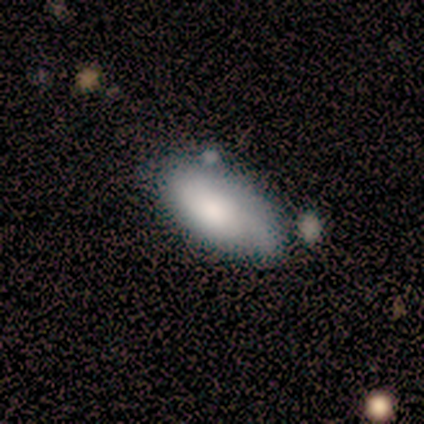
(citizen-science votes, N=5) A smooth galaxy with no disk features (60%) that is in between round and cigar-shaped (67%).

Vote fractions:
- Smooth or featured? smooth: 60% / featured or disk: 20% / star or artifact: 20%
- How rounded? in between: 67% / round: 33% / cigar-shaped: 0%
- Merging? none: 50% / minor disturbance: 25% / merger: 25% / major disturbance: 0%